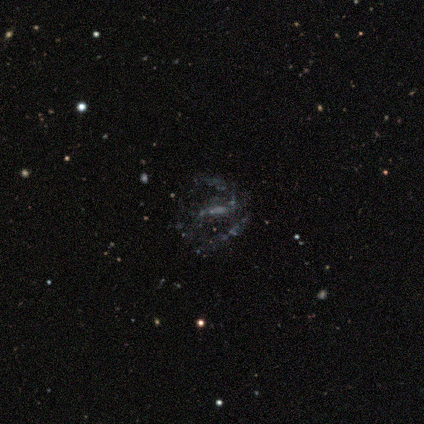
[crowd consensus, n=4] featured or disk 75%, star or artifact 25%, smooth 0%. Down the decision tree: edge-on disk — no (100%); bar — no (67%); spiral arms — no (67%); bulge size — none (100%); merging — none (100%).